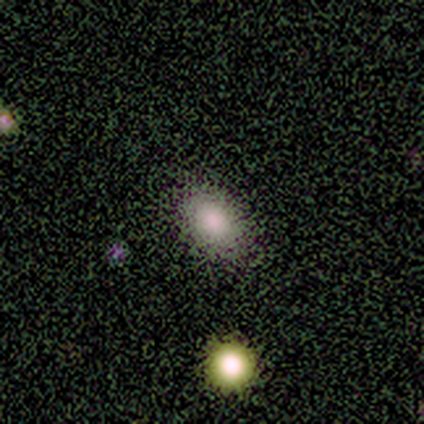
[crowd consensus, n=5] Volunteers were most divided on "smooth or featured": smooth: 80%, star or artifact: 20%, featured or disk: 0%. More confident: how rounded — in between (100%); merging — none (100%).